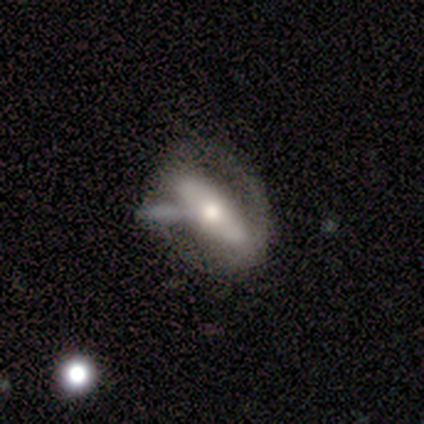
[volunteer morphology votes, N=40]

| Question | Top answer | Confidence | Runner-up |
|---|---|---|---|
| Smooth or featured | featured or disk | 57% | smooth (35%) |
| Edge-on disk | no | 57% | yes (43%) |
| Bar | no | 54% | strong (31%) |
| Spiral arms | no | 77% | yes (23%) |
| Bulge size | moderate | 62% | small (23%) |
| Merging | none | 41% | merger (22%) |